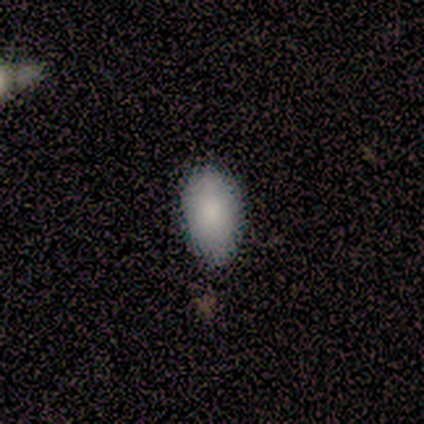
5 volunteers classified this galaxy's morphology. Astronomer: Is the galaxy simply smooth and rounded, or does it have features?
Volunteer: smooth — 80%.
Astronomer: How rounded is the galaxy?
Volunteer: in between — 100%.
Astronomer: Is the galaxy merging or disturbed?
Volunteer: none — 100%.